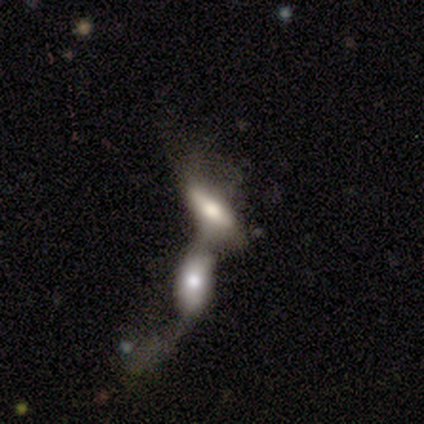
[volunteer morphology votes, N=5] This is likely a smooth galaxy (60%). How rounded: clearly in between (100%). Merging: clearly merger (80%).